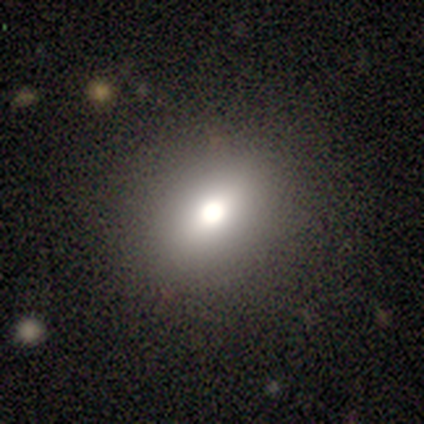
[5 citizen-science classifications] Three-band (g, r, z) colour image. It shows a smooth galaxy with no disk features (80%) that is round (50%, tied with in between). Merging: none (100%).